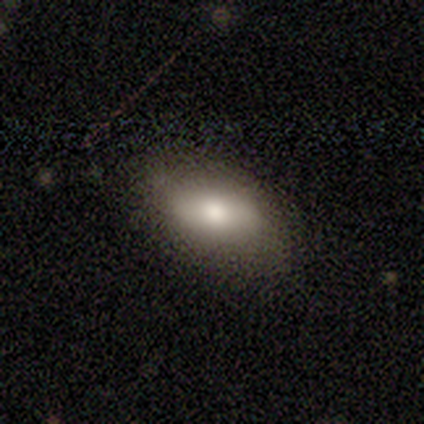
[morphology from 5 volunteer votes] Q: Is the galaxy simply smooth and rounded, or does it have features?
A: smooth — 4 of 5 (80%).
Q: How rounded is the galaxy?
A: in between — 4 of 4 (100%).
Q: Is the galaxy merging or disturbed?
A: none — 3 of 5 (60%).